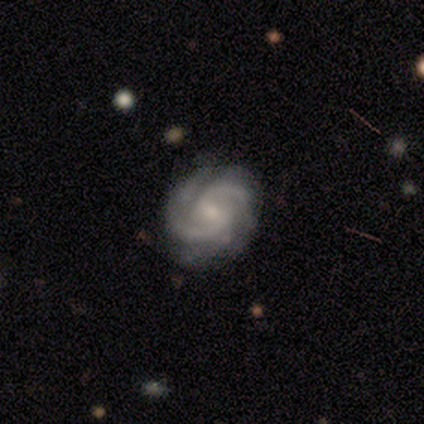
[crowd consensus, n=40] Morphology: type=featured or disk (88%); edge-on=no (100%); bar=weak (74%); spiral arms=yes (100%); winding=medium (49%); arm count=2 (89%); bulge=small (60%); merging=none (50%).